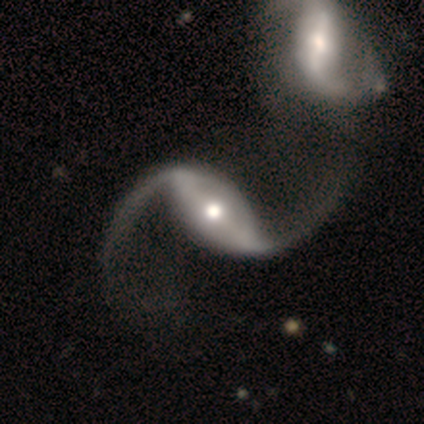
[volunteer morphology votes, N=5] smooth-or-featured: featured or disk: 100% | smooth: 0% | star or artifact: 0%
  disk-edge-on: no: 80% | yes: 20%
    bar: no: 50% | strong: 25% | weak: 25%
    has-spiral-arms: yes: 100% | no: 0%
      spiral-winding: loose: 100% | tight: 0% | medium: 0%
      spiral-arm-count: 2: 100% | 1: 0% | 3: 0% | 4: 0% | more than 4: 0% | can't tell: 0%
    bulge-size: moderate: 75% | small: 25% | dominant: 0% | large: 0% | none: 0%
  merging: minor disturbance: 40% (tied) | merger: 40% (tied) | none: 20% | major disturbance: 0%